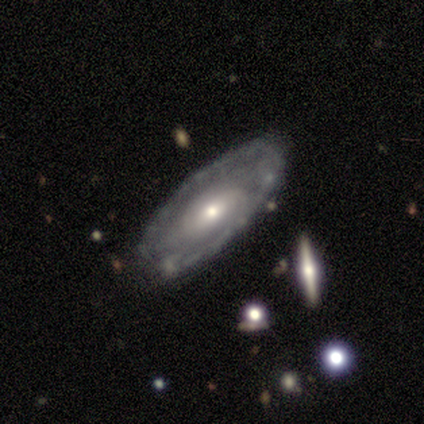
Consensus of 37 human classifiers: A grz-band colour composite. It shows a featured or disk galaxy (81%) with no bar (44%), tight (62%) spiral arms (78%) and a moderate central bulge (48%). Merging: none (62%).